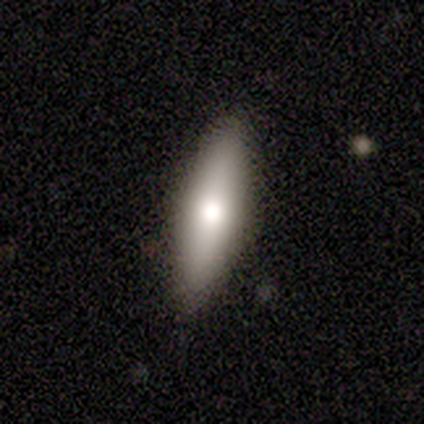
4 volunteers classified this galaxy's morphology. Overall: smooth (75%). How rounded: cigar-shaped (67%; in between 33%). Merging: none (100%).